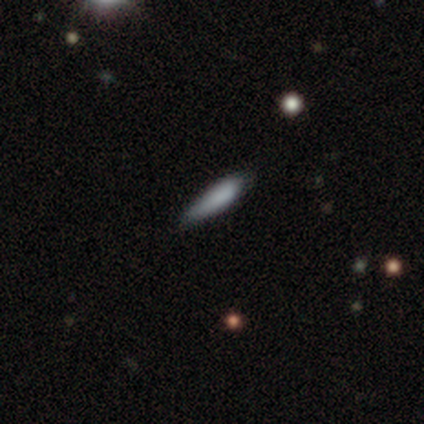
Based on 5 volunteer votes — Smooth or featured? smooth (100%)
How rounded? cigar-shaped (80%)
Merging? none (60%)